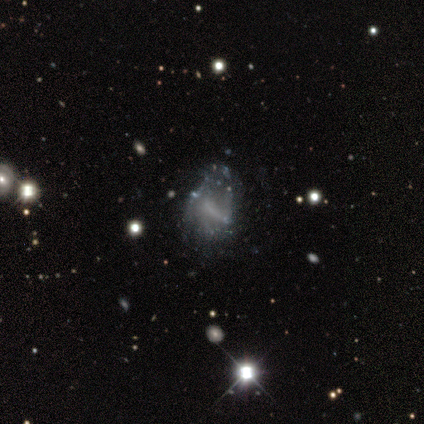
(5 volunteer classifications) A star or artifact, not a galaxy (60%).

Vote fractions:
- Smooth or featured? star or artifact: 60% / featured or disk: 40% / smooth: 0%